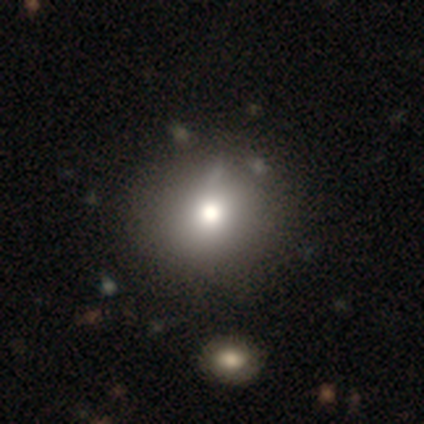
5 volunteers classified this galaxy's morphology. A smooth galaxy with no disk features (60%) that is round (67%).

Vote fractions:
- Smooth or featured? smooth: 60% / featured or disk: 20% / star or artifact: 20%
- How rounded? round: 67% / in between: 33% / cigar-shaped: 0%
- Merging? none: 50% (tied) / merger: 50% (tied) / minor disturbance: 0% / major disturbance: 0%